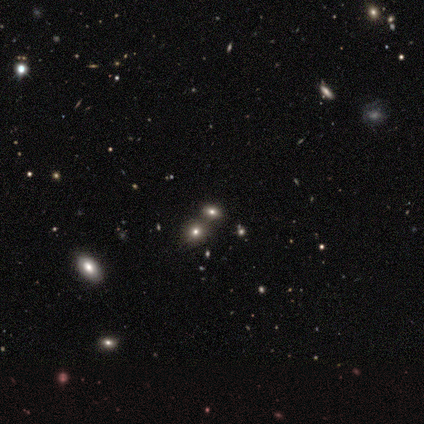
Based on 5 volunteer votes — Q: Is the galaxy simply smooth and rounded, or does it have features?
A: smooth — 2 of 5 (40%, tied with star or artifact).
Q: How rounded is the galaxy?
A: round — 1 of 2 (50%, tied with in between).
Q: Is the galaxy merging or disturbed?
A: none — 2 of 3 (67%).